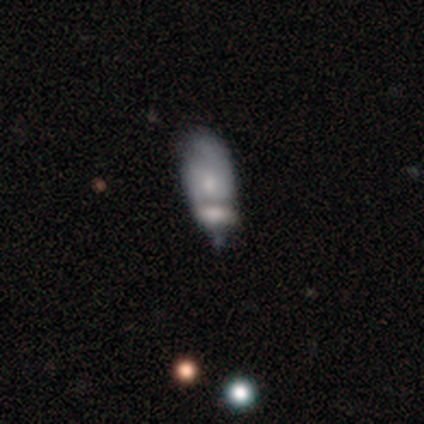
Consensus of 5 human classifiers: smooth-or-featured: smooth: 60% | featured or disk: 40% | star or artifact: 0%
  how-rounded: in between: 67% | cigar-shaped: 33% | round: 0%
  merging: minor disturbance: 40% (tied) | merger: 40% (tied) | none: 20% | major disturbance: 0%